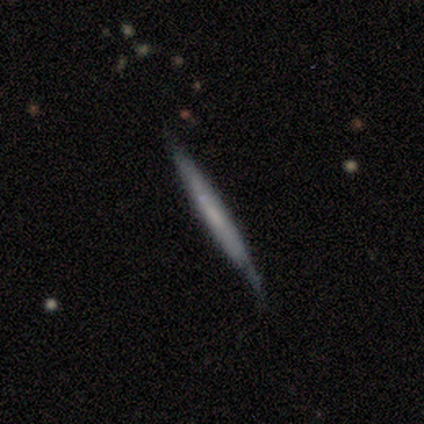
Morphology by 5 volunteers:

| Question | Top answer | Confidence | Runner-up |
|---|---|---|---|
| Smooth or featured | smooth | 60% | featured or disk (40%) |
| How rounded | cigar-shaped | 100% | — |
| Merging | none | 80% | minor disturbance (20%) |